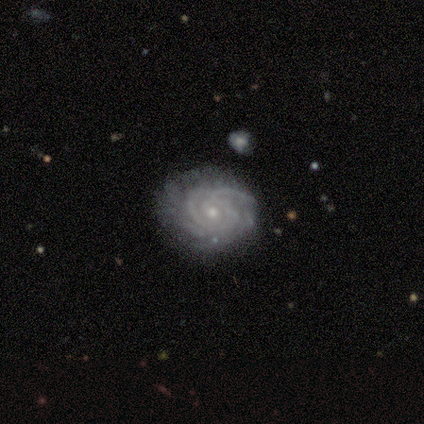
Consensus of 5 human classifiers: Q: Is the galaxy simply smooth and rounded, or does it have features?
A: featured or disk — 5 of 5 (100%).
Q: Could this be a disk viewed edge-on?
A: no — 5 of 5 (100%).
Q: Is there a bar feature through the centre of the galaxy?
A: no — 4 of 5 (80%).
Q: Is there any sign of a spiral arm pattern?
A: yes — 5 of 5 (100%).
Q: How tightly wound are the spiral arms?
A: tight — 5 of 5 (100%).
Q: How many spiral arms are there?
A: can't tell — 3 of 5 (60%).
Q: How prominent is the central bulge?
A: small — 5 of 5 (100%).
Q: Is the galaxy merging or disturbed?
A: none — 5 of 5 (100%).